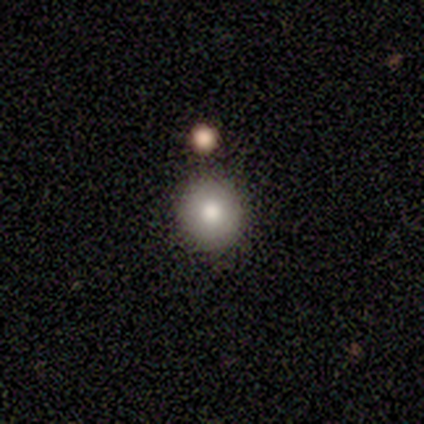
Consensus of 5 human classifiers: Morphology: type=smooth (60%); roundness=round (100%); merging=none (80%).